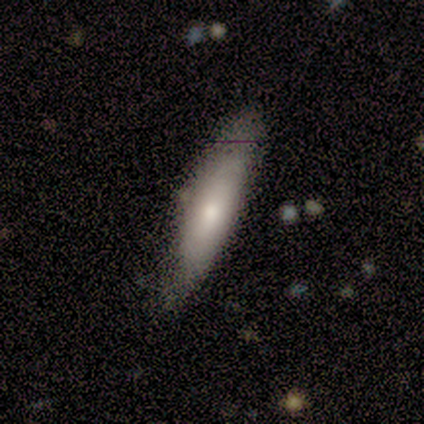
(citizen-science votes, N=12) smooth-or-featured: smooth: 75% | featured or disk: 17% | star or artifact: 8%
  how-rounded: cigar-shaped: 67% | in between: 33% | round: 0%
  merging: none: 91% | minor disturbance: 9% | major disturbance: 0% | merger: 0%